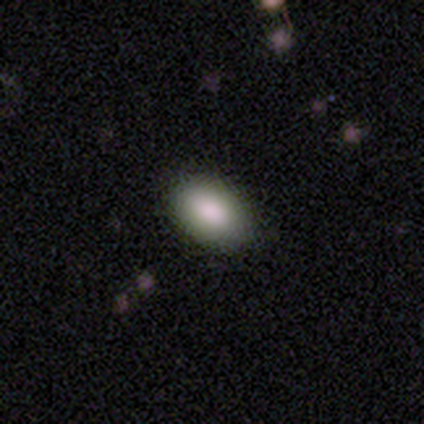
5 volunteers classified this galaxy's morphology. This appears to be a smooth galaxy with no disk features (60%) that is in between round and cigar-shaped (67%). Merging: none (100%).